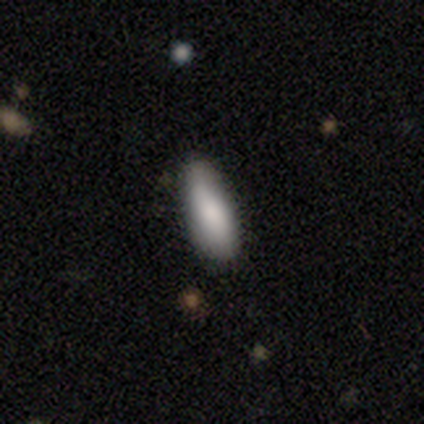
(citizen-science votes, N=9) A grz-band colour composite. It shows a smooth galaxy with no disk features (89%) that is in between round and cigar-shaped (88%). Merging: none (88%).